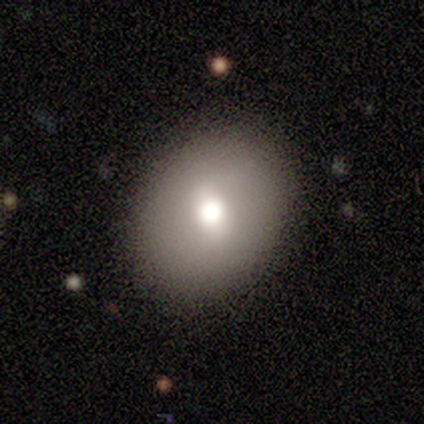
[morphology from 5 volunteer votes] Smooth or featured: smooth — 100%
How rounded: round — 80% (in between — 20%)
Merging: none — 100%